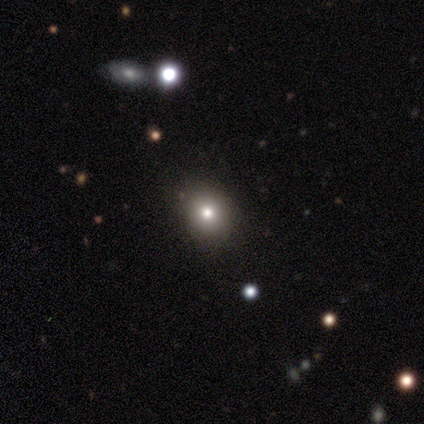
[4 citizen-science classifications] Morphology: type=smooth (50%, tied with featured or disk); roundness=round (100%); merging=none (100%).